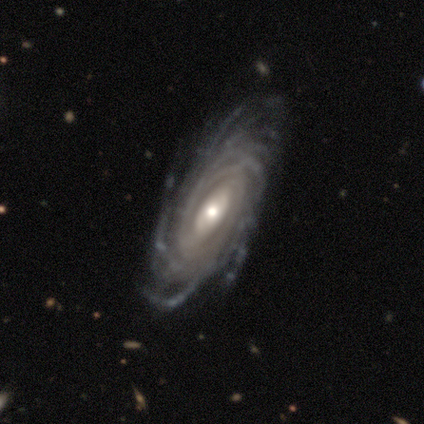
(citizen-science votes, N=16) Smooth or featured?
  - featured or disk: 94% *
  - star or artifact: 6%
  - smooth: 0%
Edge-on disk?
  - no: 93% *
  - yes: 7%
Bar?
  - weak: 50% *
  - no: 43%
  - strong: 7%
Spiral arms?
  - yes: 93% *
  - no: 7%
Spiral winding?
  - tight: 62% *
  - medium: 38%
  - loose: 0%
Spiral arm count?
  - more than 4: 69% *
  - can't tell: 23%
  - 3: 8%
  - 1: 0%
  - 2: 0%
  - 4: 0%
Bulge size?
  - moderate: 57% *
  - small: 36%
  - large: 7%
  - dominant: 0%
  - none: 0%
Merging?
  - none: 67% *
  - minor disturbance: 27%
  - merger: 7%
  - major disturbance: 0%